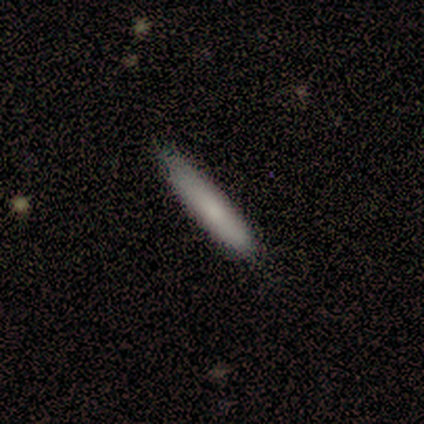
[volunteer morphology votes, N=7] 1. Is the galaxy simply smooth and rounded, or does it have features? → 86% smooth, 14% featured or disk, 0% star or artifact.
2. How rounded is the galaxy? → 100% cigar-shaped, 0% round, 0% in between.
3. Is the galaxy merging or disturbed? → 86% none, 14% minor disturbance, 0% major disturbance, 0% merger.